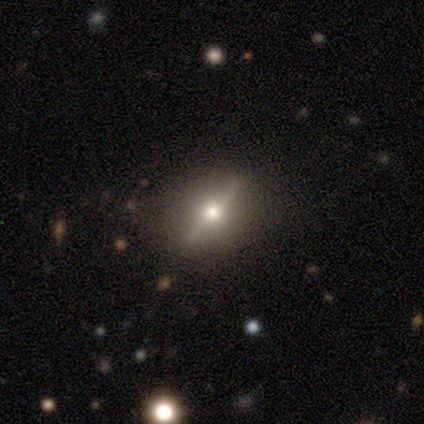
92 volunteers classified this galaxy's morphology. A featured or disk galaxy (71%) viewed edge-on (75%) with a rounded central bulge (96%).

Vote fractions:
- Smooth or featured? featured or disk: 71% / smooth: 18% / star or artifact: 11%
- Edge-on disk? yes: 75% / no: 25%
- Edge-on bulge? rounded: 96% / boxy: 2% / none: 2%
- Merging? none: 90% / minor disturbance: 9% / merger: 1% / major disturbance: 0%